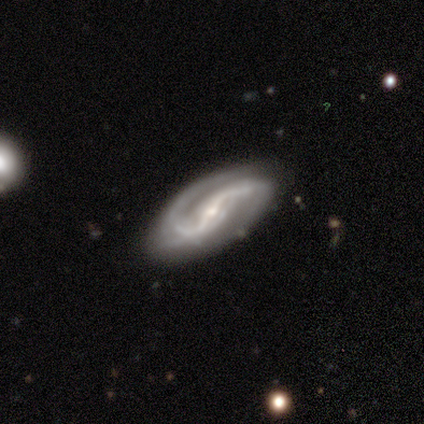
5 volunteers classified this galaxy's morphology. Q: Smooth or featured?
A: featured or disk (100%)
Q: Edge-on disk?
A: no (100%)
Q: Bar?
A: strong (80%); runner-up: no (20%)
Q: Spiral arms?
A: yes (100%)
Q: Spiral winding?
A: tight (60%); runner-up: loose (40%)
Q: Spiral arm count?
A: 2 (100%)
Q: Bulge size?
A: small (80%); runner-up: moderate (20%)
Q: Merging?
A: none (100%)